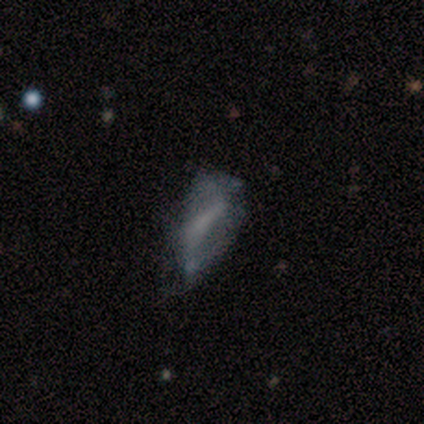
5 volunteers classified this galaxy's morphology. type=smooth (80%); roundness=in between (75%); merging=minor disturbance (60%).